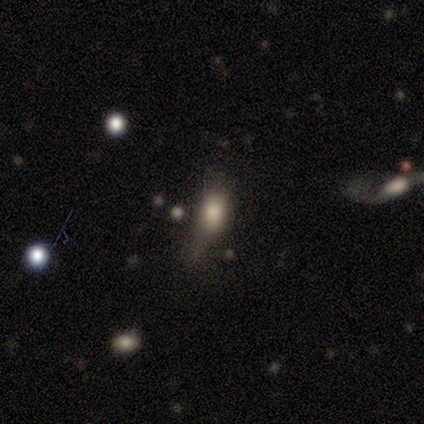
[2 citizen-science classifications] Morphology: type=smooth (100%); roundness=in between (100%); merging=none (50%, tied with major disturbance).